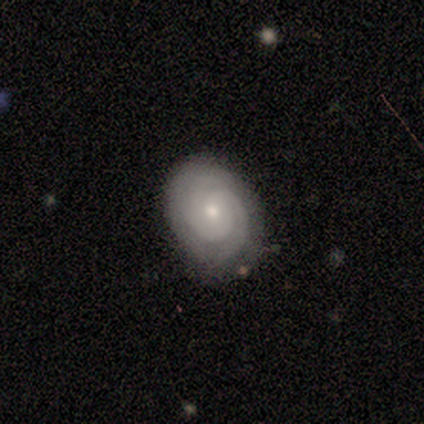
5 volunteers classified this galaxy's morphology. Smooth or featured? featured or disk (100%)
Edge-on disk? no (100%)
Bar? weak (40%, tied with no)
Spiral arms? yes (100%)
Spiral winding? tight (80%)
Spiral arm count? 2 (60%)
Bulge size? small (80%)
Merging? none (80%)